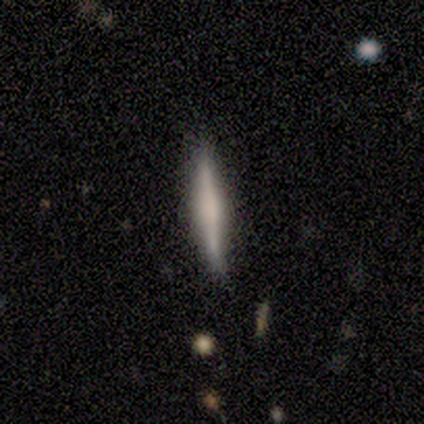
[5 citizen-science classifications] Morphology: type=featured or disk (100%); edge-on=yes (100%); edge-on bulge=boxy (60%); merging=none (80%).